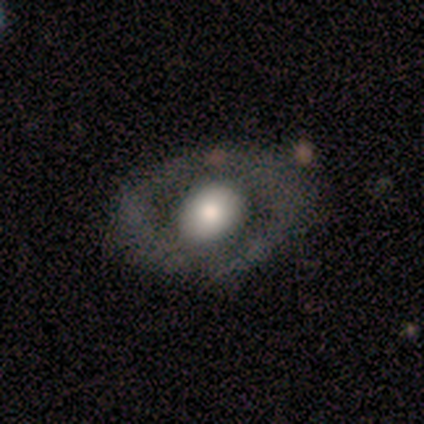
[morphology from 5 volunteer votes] smooth 60%, featured or disk 20%, star or artifact 20%. Down the decision tree: how rounded — round (67%); merging — none (100%).